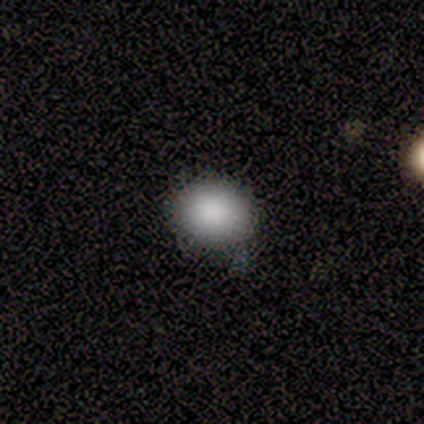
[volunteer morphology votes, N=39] smooth 92%, star or artifact 5%, featured or disk 3%. Down the decision tree: how rounded — round (69%); merging — none (54%).